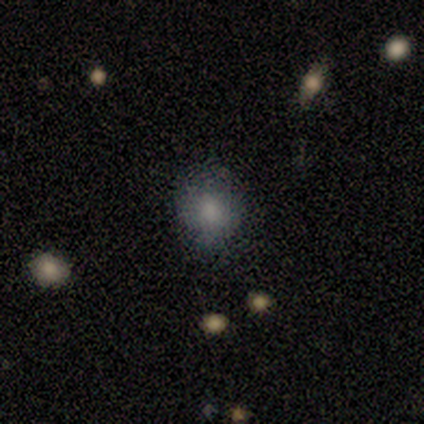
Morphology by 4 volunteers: Smooth or featured: smooth — 75% (featured or disk — 25%)
How rounded: round — 67% (in between — 33%)
Merging: none — 100%